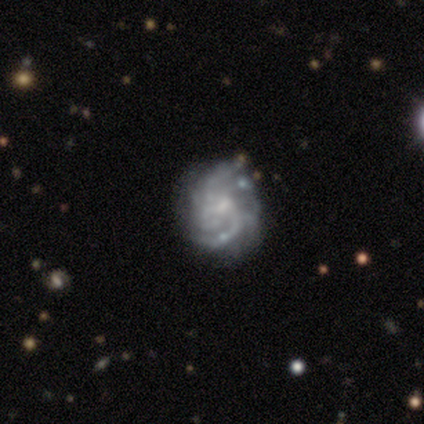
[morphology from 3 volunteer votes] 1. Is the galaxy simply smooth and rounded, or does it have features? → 100% featured or disk, 0% smooth, 0% star or artifact.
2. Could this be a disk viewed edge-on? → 100% no, 0% yes.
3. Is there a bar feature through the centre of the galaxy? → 67% weak, 33% no, 0% strong.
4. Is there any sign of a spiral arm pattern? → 100% yes, 0% no.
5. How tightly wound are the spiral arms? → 67% medium, 33% tight, 0% loose.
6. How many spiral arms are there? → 33% 3 (tied), 33% 4 (tied), 33% can't tell (tied), 0% 1, 0% 2, 0% more than 4.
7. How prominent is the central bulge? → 67% small, 33% moderate, 0% dominant, 0% large, 0% none.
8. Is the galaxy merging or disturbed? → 100% none, 0% minor disturbance, 0% major disturbance, 0% merger.